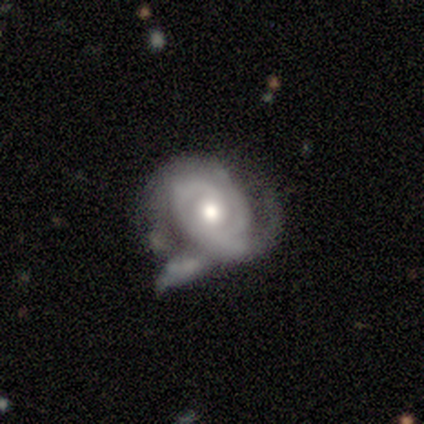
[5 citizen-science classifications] Overall: featured or disk (80%). Edge-on disk: no (75%). Bar: no (100%). Spiral arms: yes (100%). Spiral arm count: 1 (33%, tied with 2 and can't tell). Spiral winding: tight (67%; medium 33%). Bulge size: moderate (100%). Merging: major disturbance (50%; none 25%).